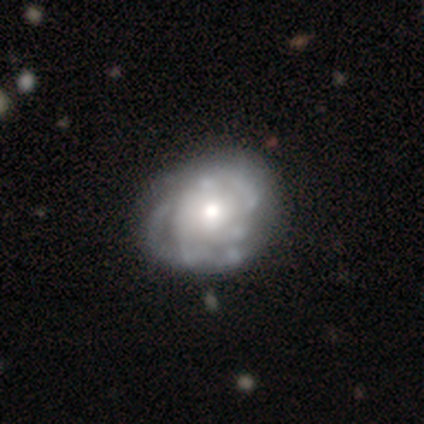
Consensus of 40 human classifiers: smooth_or_featured: featured or disk (p=0.78) [alt: smooth p=0.17]
disk_edge_on: no (p=1.00)
bar: no (p=0.90) [alt: weak p=0.10]
has_spiral_arms: yes (p=0.71) [alt: no p=0.29]
spiral_winding: tight (p=0.55) [alt: medium p=0.36]
spiral_arm_count: can't tell (p=0.77) [alt: 3 p=0.09]
bulge_size: moderate (p=0.42) [alt: small p=0.32]
merging: none (p=0.21) [alt: minor disturbance p=0.18]